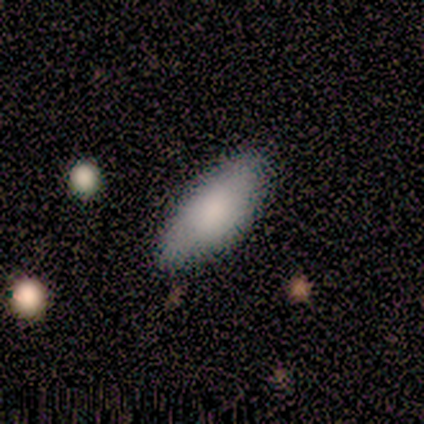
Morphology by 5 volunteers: This is clearly a smooth galaxy (100%). How rounded: clearly in between (100%). Merging: clearly none (80%).